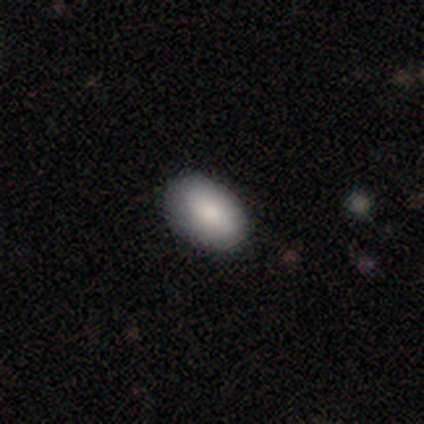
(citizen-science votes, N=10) smooth_or_featured: smooth (p=0.90) [alt: featured or disk p=0.10]
how_rounded: in between (p=0.89) [alt: round p=0.11]
merging: none (p=1.00)